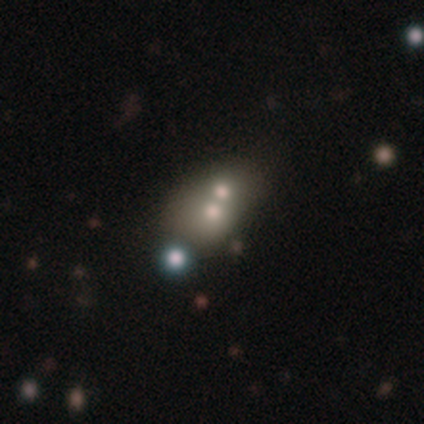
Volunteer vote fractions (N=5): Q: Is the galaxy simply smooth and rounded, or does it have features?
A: smooth — 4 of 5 (80%).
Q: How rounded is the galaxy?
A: round — 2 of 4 (50%, tied with in between).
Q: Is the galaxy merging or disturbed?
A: merger — 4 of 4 (100%).